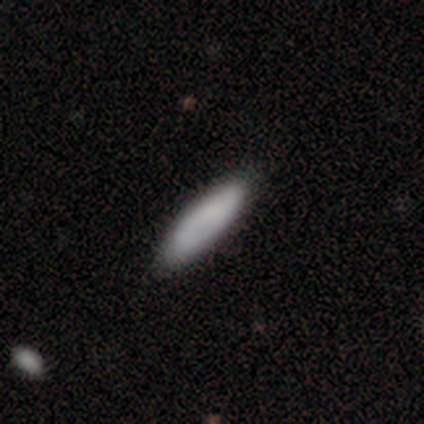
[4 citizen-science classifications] smooth-or-featured: smooth: 100% | featured or disk: 0% | star or artifact: 0%
  how-rounded: cigar-shaped: 100% | round: 0% | in between: 0%
  merging: none: 100% | minor disturbance: 0% | major disturbance: 0% | merger: 0%